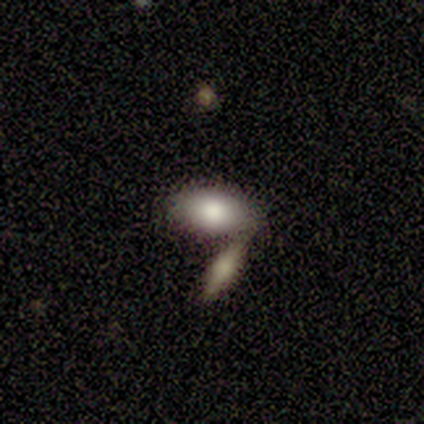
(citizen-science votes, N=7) Smooth or featured: smooth — 100%
How rounded: in between — 100%
Merging: none — 43% (tied with merger — 43%)